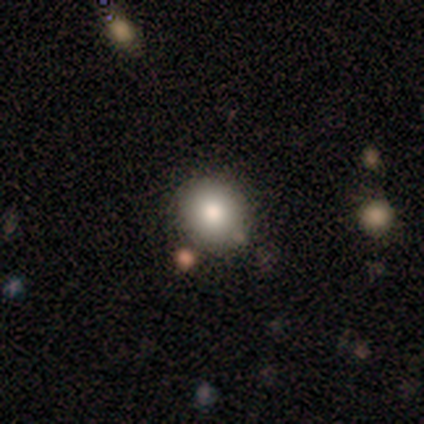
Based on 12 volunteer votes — Volunteers were most divided on "how rounded": round: 82%, in between: 18%, cigar-shaped: 0%. More confident: smooth or featured — smooth (92%); merging — none (92%).